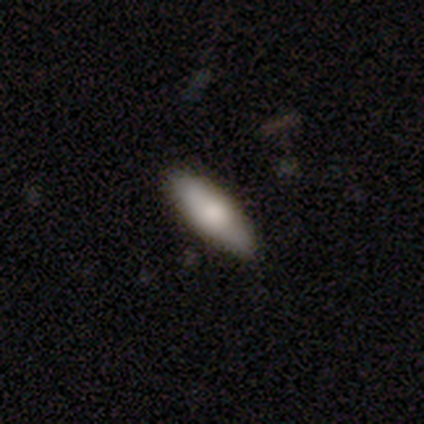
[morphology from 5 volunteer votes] Smooth or featured? smooth (60%)
How rounded? in between (67%)
Merging? none (80%)